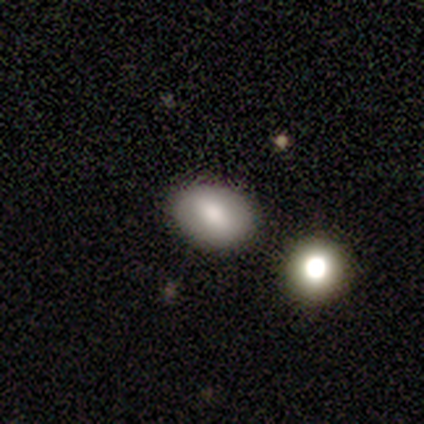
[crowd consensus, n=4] A smooth galaxy with no disk features (100%) that is in between round and cigar-shaped (100%). Merging: none (75%).